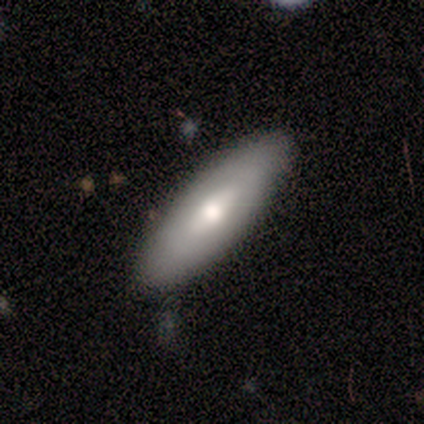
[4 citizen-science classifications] Volunteers were most divided on "how rounded" (2-way tie): in between: 50%, cigar-shaped: 50%, round: 0%. More confident: merging — none (100%); smooth or featured — smooth (50%).